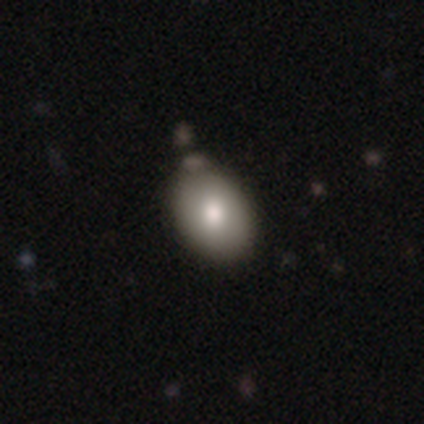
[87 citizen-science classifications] Overall: smooth (83%). How rounded: in between (72%). Merging: none (63%).